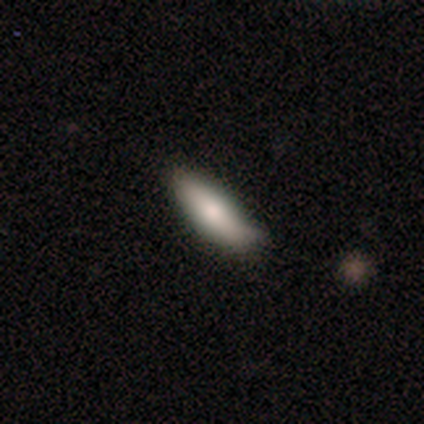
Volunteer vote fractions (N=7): Q: Smooth or featured?
A: smooth (100%)
Q: How rounded?
A: in between (71%); runner-up: cigar-shaped (29%)
Q: Merging?
A: none (43%); runner-up: minor disturbance (29%)